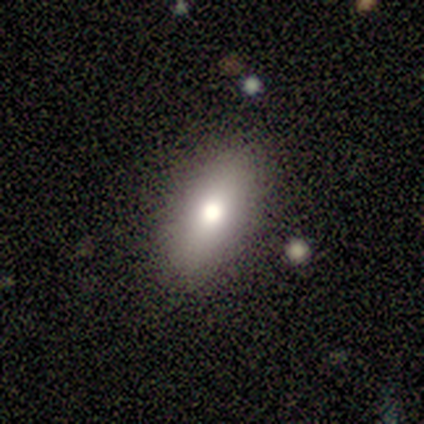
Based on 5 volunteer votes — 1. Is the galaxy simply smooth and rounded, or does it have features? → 60% smooth, 20% featured or disk, 20% star or artifact.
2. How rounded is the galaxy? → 67% in between, 33% cigar-shaped, 0% round.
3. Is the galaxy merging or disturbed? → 100% none, 0% minor disturbance, 0% major disturbance, 0% merger.